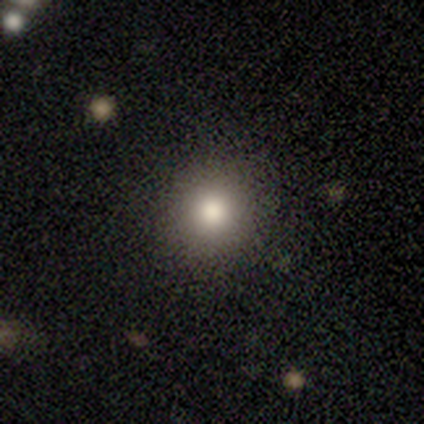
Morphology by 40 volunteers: smooth_or_featured: smooth (p=0.80) [alt: featured or disk p=0.12]
how_rounded: round (p=1.00)
merging: none (p=0.59) [alt: minor disturbance p=0.08]